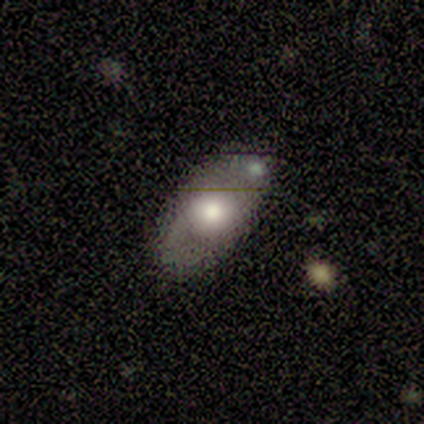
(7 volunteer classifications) This is possibly a featured or disk galaxy (57%). It is likely not viewed edge-on (75%). Bar: likely no (67%). Spiral arm pattern: likely no (67%). Central bulge: likely moderate (67%). Merging: clearly none (86%).